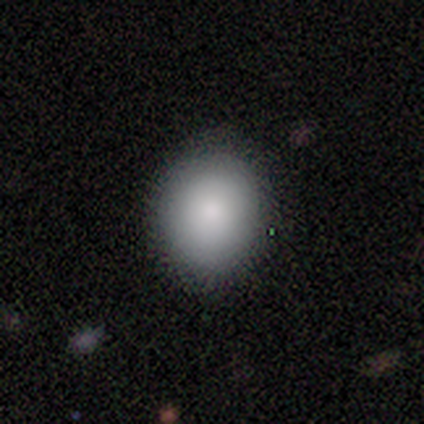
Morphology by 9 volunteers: smooth_or_featured: smooth (p=0.89) [alt: featured or disk p=0.11]
how_rounded: round (p=0.50) [tied with: in between p=0.50]
merging: none (p=0.89) [alt: minor disturbance p=0.11]